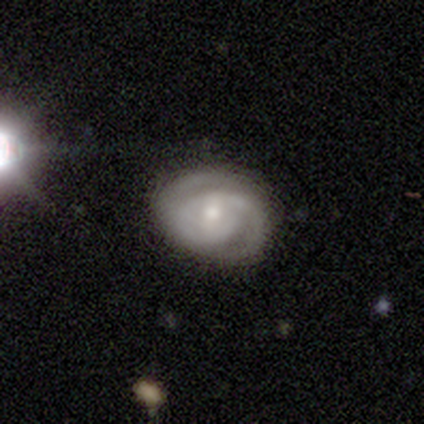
This is clearly a featured or disk galaxy (100%). It is clearly not viewed edge-on (100%). Bar: likely weak (60%). Spiral arm pattern: clearly yes (100%). Spiral arm count: likely 2 (60%). Spiral winding: likely tight (60%). Central bulge: likely moderate (60%). Merging: clearly none (80%).